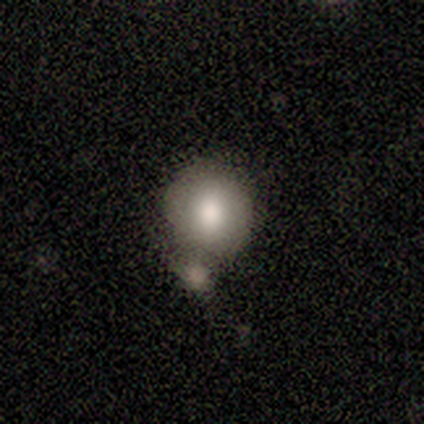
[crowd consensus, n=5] Volunteers were most divided on "merging": none: 80%, minor disturbance: 20%, major disturbance: 0%, merger: 0%. More confident: smooth or featured — smooth (100%); how rounded — round (100%).